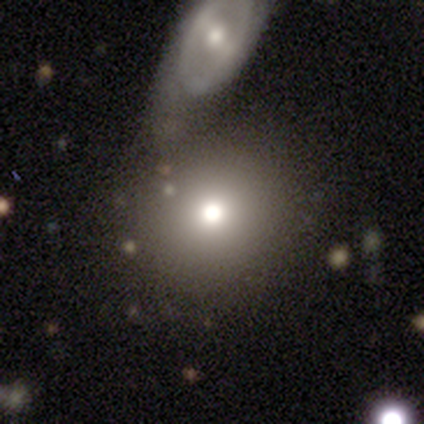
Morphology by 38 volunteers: Smooth or featured?
  - smooth: 61% *
  - star or artifact: 29%
  - featured or disk: 11%
How rounded?
  - round: 87% *
  - in between: 13%
  - cigar-shaped: 0%
Merging?
  - none: 52% *
  - merger: 41%
  - minor disturbance: 7%
  - major disturbance: 0%